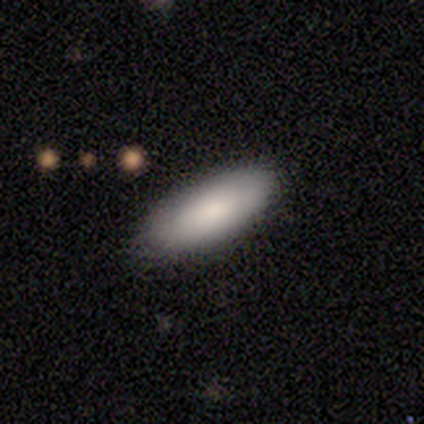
Q: Smooth or featured?
A: smooth (86%); runner-up: featured or disk (14%)
Q: How rounded?
A: in between (83%); runner-up: cigar-shaped (17%)
Q: Merging?
A: none (86%); runner-up: minor disturbance (14%)